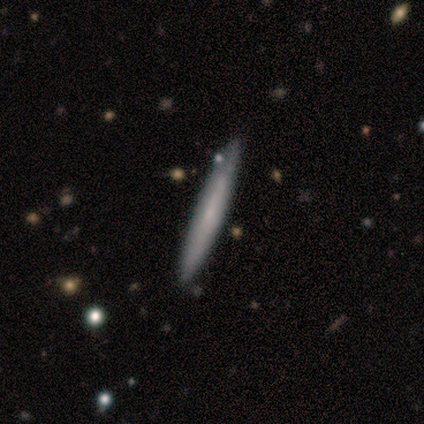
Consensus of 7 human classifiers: Smooth or featured: featured or disk — 57% (smooth — 43%)
Edge-on disk: yes — 100%
Edge-on bulge: none — 75% (rounded — 25%)
Merging: none — 100%